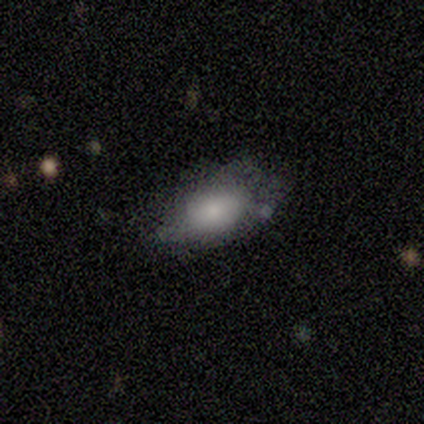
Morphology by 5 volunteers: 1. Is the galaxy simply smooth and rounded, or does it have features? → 100% smooth, 0% featured or disk, 0% star or artifact.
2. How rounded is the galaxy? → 80% in between, 20% round, 0% cigar-shaped.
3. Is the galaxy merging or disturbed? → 60% minor disturbance, 20% none, 20% major disturbance, 0% merger.